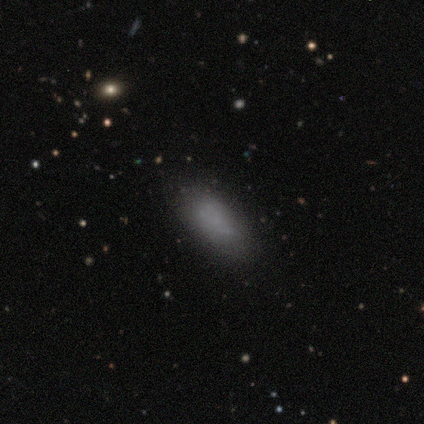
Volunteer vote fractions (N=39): Q: Smooth or featured?
A: smooth (67%); runner-up: featured or disk (21%)
Q: How rounded?
A: in between (88%); runner-up: cigar-shaped (12%)
Q: Merging?
A: none (76%); runner-up: minor disturbance (21%)